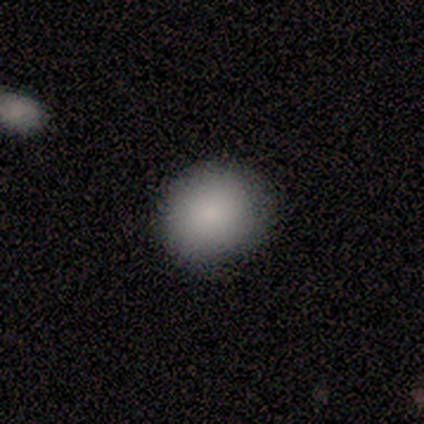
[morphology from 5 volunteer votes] This appears to be a smooth galaxy with no disk features (80%) that is round (100%). Merging: none (100%).